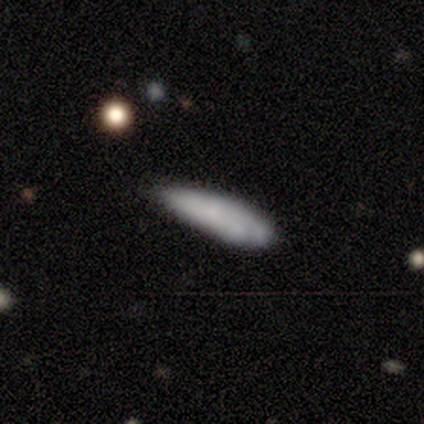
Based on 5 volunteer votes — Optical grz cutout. It shows a smooth galaxy with no disk features (80%) that is in between round and cigar-shaped (50%, tied with cigar-shaped). Merging: minor disturbance (60%).